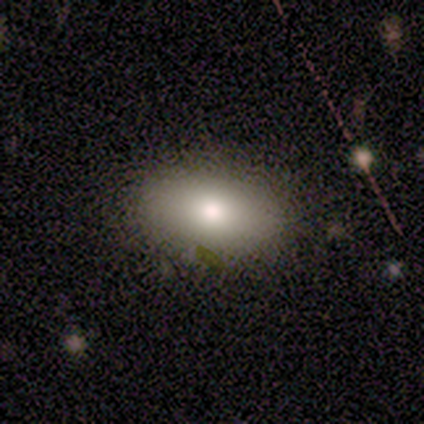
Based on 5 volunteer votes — This is clearly a smooth galaxy (80%). How rounded: likely in between (75%). Merging: clearly none (100%).